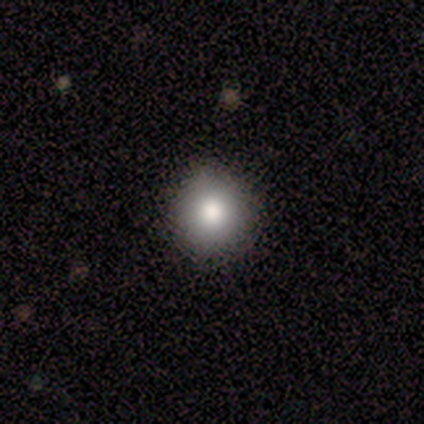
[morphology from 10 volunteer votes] smooth-or-featured: smooth: 80% | featured or disk: 10% | star or artifact: 10%
  how-rounded: round: 88% | in between: 12% | cigar-shaped: 0%
  merging: none: 89% | minor disturbance: 11% | major disturbance: 0% | merger: 0%